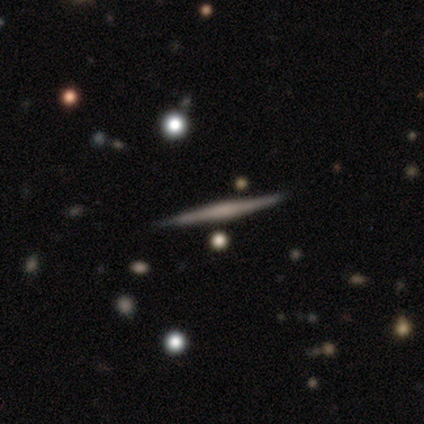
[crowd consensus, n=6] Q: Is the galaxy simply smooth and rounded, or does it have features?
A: featured or disk — 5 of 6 (83%).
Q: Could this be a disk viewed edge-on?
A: yes — 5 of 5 (100%).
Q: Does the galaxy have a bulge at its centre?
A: boxy — 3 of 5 (60%).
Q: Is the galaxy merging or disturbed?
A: none — 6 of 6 (100%).